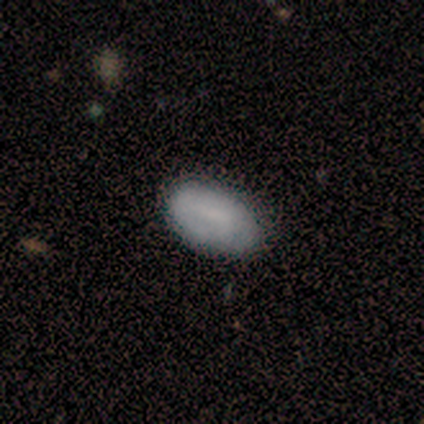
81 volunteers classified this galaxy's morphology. Smooth or featured?
  - smooth: 72% *
  - featured or disk: 21%
  - star or artifact: 7%
How rounded?
  - in between: 97% *
  - round: 2%
  - cigar-shaped: 2%
Merging?
  - none: 53% *
  - minor disturbance: 8%
  - major disturbance: 3%
  - merger: 3%